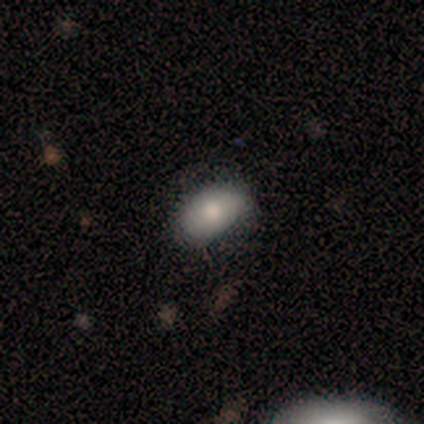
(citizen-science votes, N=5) This appears to be a smooth galaxy with no disk features (100%) that is in between round and cigar-shaped (100%). Merging: none (60%).